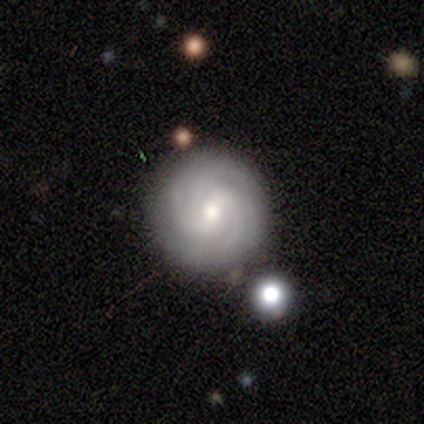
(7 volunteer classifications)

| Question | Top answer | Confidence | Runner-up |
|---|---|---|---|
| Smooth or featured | featured or disk | 100% | — |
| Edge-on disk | no | 100% | — |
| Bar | weak | 71% | strong (14%) |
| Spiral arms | yes | 100% | — |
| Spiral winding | tight | 57% | medium (43%) |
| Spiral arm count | can't tell | 57% | 3 (14%) |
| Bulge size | moderate | 57% | small (29%) |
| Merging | none | 86% | minor disturbance (14%) |